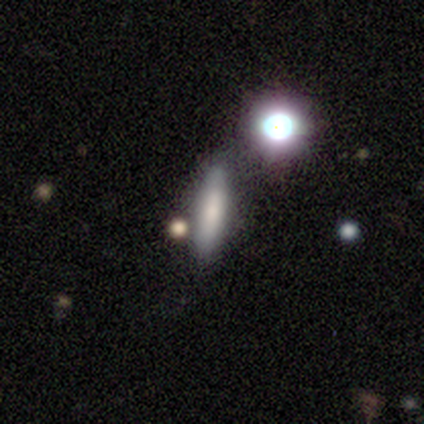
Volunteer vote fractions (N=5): Smooth or featured?
  - smooth: 80% *
  - star or artifact: 20%
  - featured or disk: 0%
How rounded?
  - cigar-shaped: 50% *
  - round: 25%
  - in between: 25%
Merging?
  - none: 75% *
  - merger: 25%
  - minor disturbance: 0%
  - major disturbance: 0%